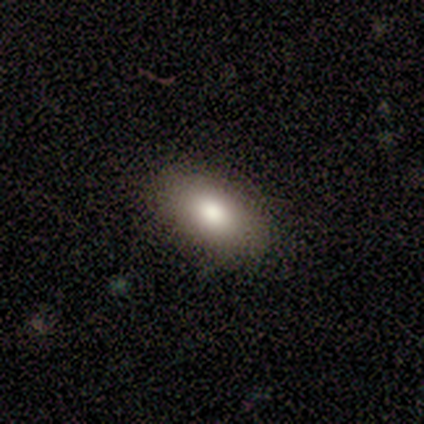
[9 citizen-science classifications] A smooth galaxy with no disk features (89%) that is in between round and cigar-shaped (100%).

Vote fractions:
- Smooth or featured? smooth: 89% / featured or disk: 11% / star or artifact: 0%
- How rounded? in between: 100% / round: 0% / cigar-shaped: 0%
- Merging? none: 100% / minor disturbance: 0% / major disturbance: 0% / merger: 0%